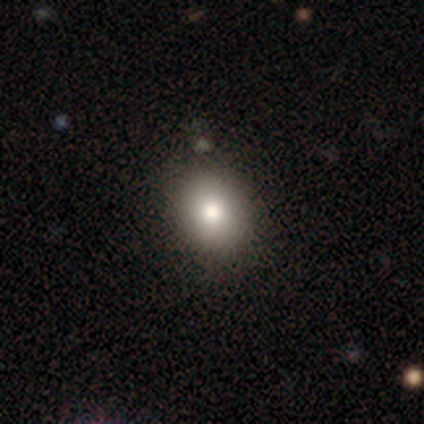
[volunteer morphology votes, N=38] Smooth or featured? smooth (92%)
How rounded? round (57%)
Merging? none (75%)